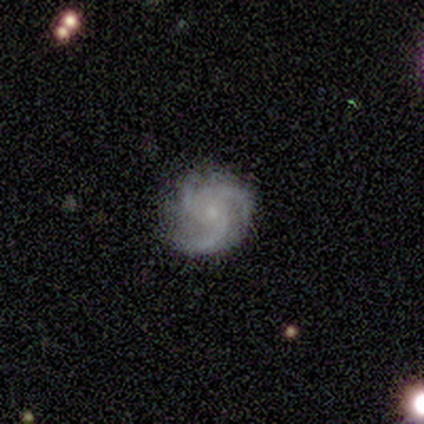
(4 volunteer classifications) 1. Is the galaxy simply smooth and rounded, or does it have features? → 100% featured or disk, 0% smooth, 0% star or artifact.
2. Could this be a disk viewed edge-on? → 100% no, 0% yes.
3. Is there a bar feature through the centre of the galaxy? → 75% no, 25% weak, 0% strong.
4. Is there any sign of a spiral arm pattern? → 100% yes, 0% no.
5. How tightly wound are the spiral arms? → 50% tight (tied), 50% medium (tied), 0% loose.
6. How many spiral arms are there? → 75% 3, 25% 2, 0% 1, 0% 4, 0% more than 4, 0% can't tell.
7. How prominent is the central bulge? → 50% moderate (tied), 50% small (tied), 0% dominant, 0% large, 0% none.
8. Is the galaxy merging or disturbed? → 50% none (tied), 50% minor disturbance (tied), 0% major disturbance, 0% merger.